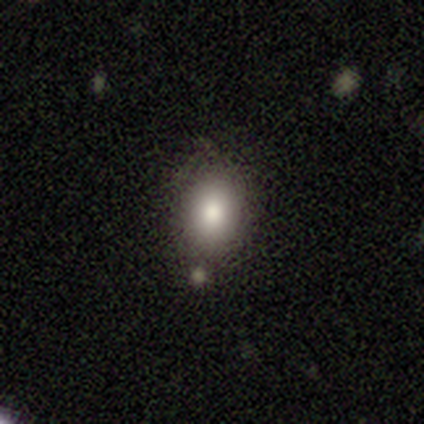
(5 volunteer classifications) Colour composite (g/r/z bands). It shows a smooth galaxy with no disk features (80%) that is in between round and cigar-shaped (75%). Merging: none (60%).